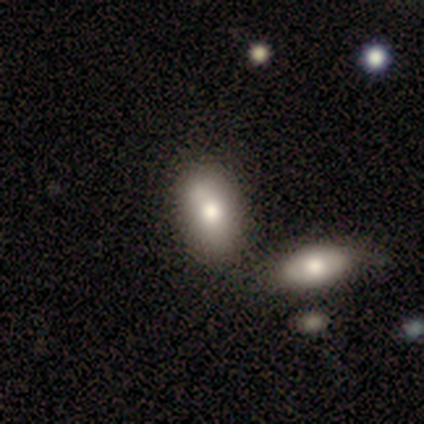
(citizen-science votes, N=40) A smooth galaxy with no disk features (75%) that is in between round and cigar-shaped (93%).

Vote fractions:
- Smooth or featured? smooth: 75% / featured or disk: 15% / star or artifact: 10%
- How rounded? in between: 93% / round: 7% / cigar-shaped: 0%
- Merging? none: 36% / merger: 33% / minor disturbance: 8% / major disturbance: 3%